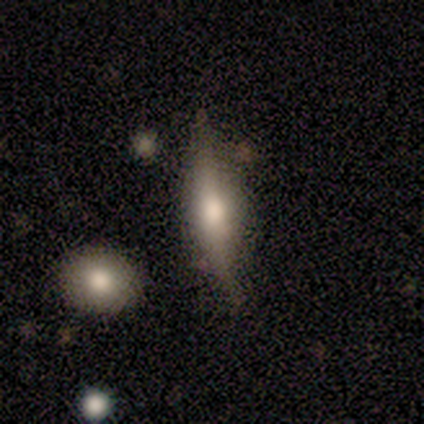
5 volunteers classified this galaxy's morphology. Smooth or featured? featured or disk (60%)
Edge-on disk? yes (100%)
Edge-on bulge? rounded (100%)
Merging? minor disturbance (75%)